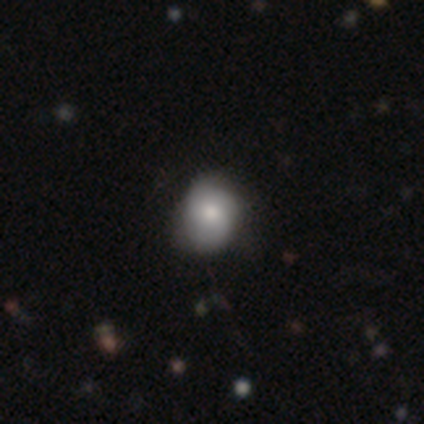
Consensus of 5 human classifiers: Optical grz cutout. It shows a smooth galaxy with no disk features (60%) that is round (67%). Merging: none (60%).